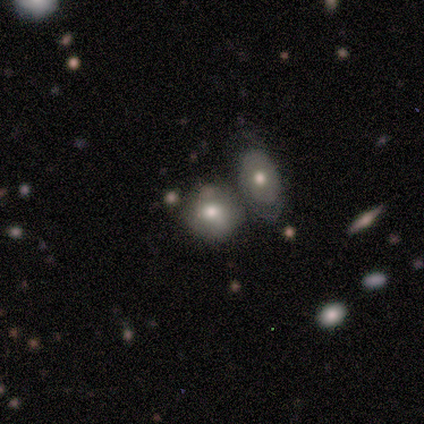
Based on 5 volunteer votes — Morphology: type=featured or disk (60%); edge-on=no (100%); bar=weak (67%); spiral arms=no (67%); bulge=small (67%); merging=merger (60%).